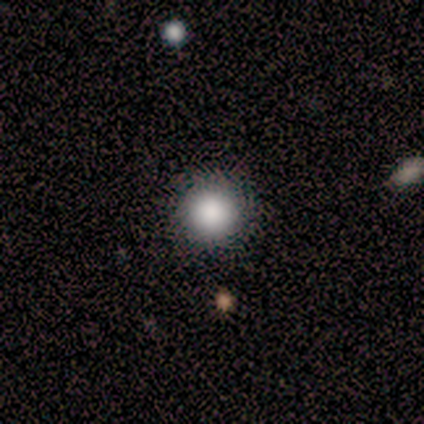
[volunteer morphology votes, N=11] Volunteers were most divided on "smooth or featured": smooth: 73%, featured or disk: 18%, star or artifact: 9%. More confident: how rounded — round (100%); merging — none (90%).